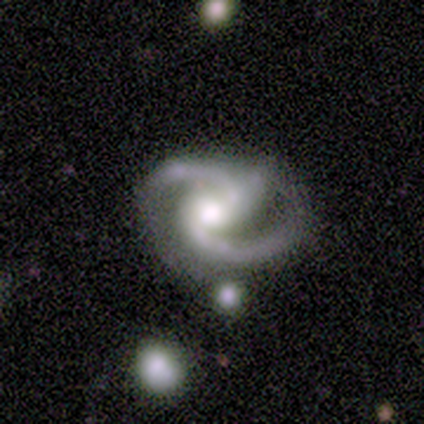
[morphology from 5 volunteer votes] Smooth or featured: featured or disk — 100%
Edge-on disk: no — 100%
Bar: no — 60% (strong — 20%)
Spiral arms: yes — 100%
Spiral winding: medium — 60% (tight — 20%)
Spiral arm count: 2 — 80% (3 — 20%)
Bulge size: moderate — 80% (none — 20%)
Merging: minor disturbance — 60% (none — 40%)